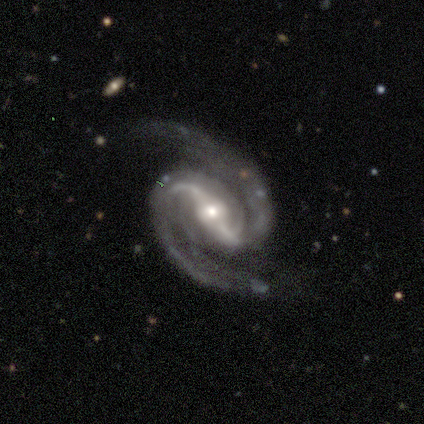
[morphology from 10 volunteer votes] smooth_or_featured: featured or disk (p=1.00)
disk_edge_on: no (p=1.00)
bar: strong (p=0.70) [alt: weak p=0.30]
has_spiral_arms: yes (p=1.00)
spiral_winding: medium (p=0.60) [alt: tight p=0.20]
spiral_arm_count: 2 (p=1.00)
bulge_size: moderate (p=0.60) [alt: small p=0.40]
merging: none (p=0.60) [alt: minor disturbance p=0.30]